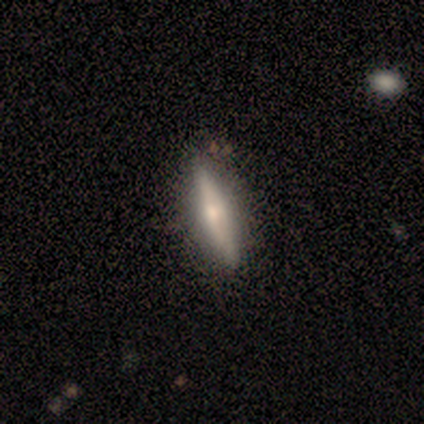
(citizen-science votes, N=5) Volunteers were most divided on "smooth or featured": smooth: 60%, featured or disk: 40%, star or artifact: 0%. More confident: how rounded — cigar-shaped (100%); merging — none (80%).